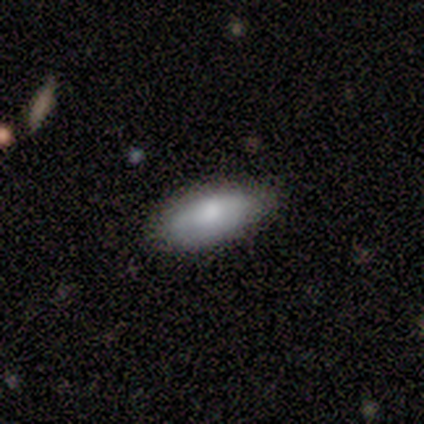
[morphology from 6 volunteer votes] smooth_or_featured: smooth (p=1.00)
how_rounded: in between (p=0.67) [alt: cigar-shaped p=0.33]
merging: none (p=0.67) [alt: minor disturbance p=0.33]